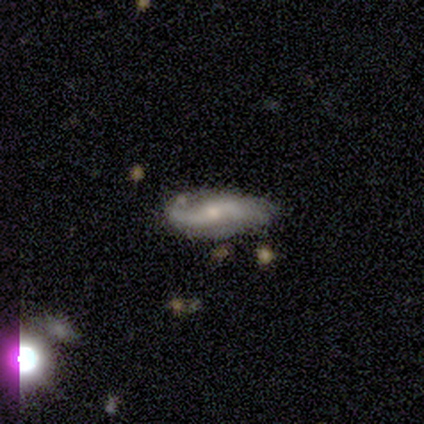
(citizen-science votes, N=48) smooth_or_featured: featured or disk (p=0.77) [alt: smooth p=0.19]
disk_edge_on: no (p=0.92) [alt: yes p=0.08]
bar: weak (p=0.53) [alt: no p=0.44]
has_spiral_arms: yes (p=0.88) [alt: no p=0.12]
spiral_winding: loose (p=0.57) [alt: medium p=0.33]
spiral_arm_count: 2 (p=0.93) [alt: 1 p=0.07]
bulge_size: small (p=0.62) [alt: moderate p=0.32]
merging: none (p=0.70) [alt: minor disturbance p=0.28]